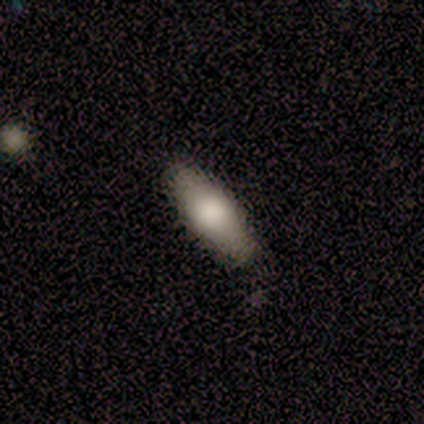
Morphology: type=smooth (80%); roundness=cigar-shaped (75%); merging=none (80%).